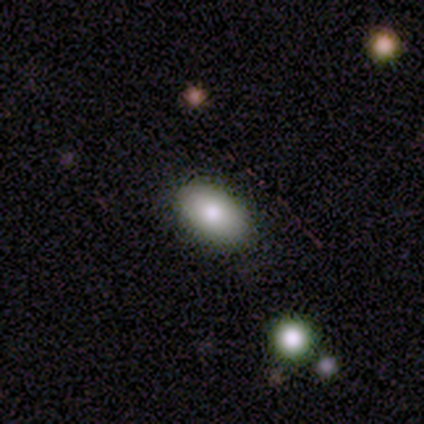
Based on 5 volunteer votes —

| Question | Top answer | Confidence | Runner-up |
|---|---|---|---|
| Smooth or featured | smooth | 80% | star or artifact (20%) |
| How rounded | in between | 100% | — |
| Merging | none | 100% | — |